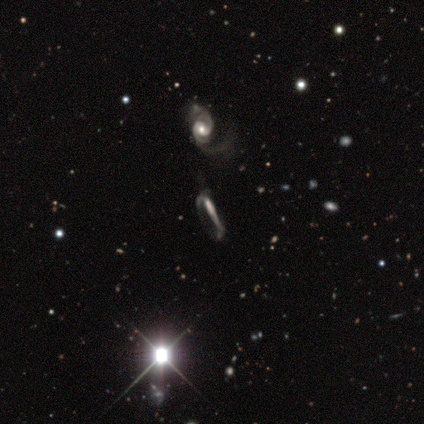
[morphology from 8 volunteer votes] Overall: featured or disk (62%; star or artifact 25%). Edge-on disk: no (60%; yes 40%). Bar: strong (33%, tied with weak and no). Spiral arms: yes (67%; no 33%). Spiral arm count: 2 (100%). Spiral winding: medium (50%, tied with loose). Bulge size: small (67%; none 33%). Merging: major disturbance (67%).